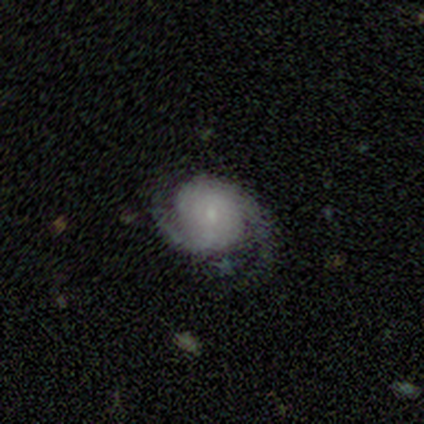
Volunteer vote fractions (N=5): A featured or disk galaxy (100%) with no bar (80%), 2 (100%) tight (40%, tied with medium) spiral arms (100%) and a small central bulge (60%). Merging: none (60%).